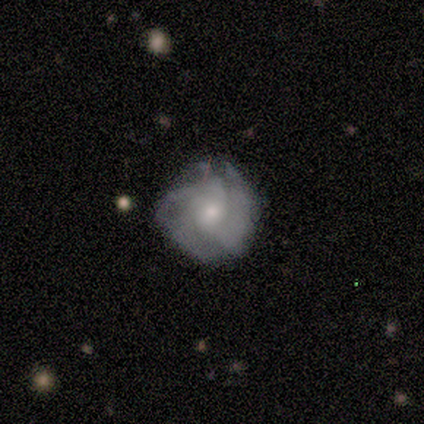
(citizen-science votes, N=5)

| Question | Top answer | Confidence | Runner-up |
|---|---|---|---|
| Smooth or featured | smooth | 60% | featured or disk (40%) |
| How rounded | round | 100% | — |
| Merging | none | 40% | tied: minor disturbance (40%) |